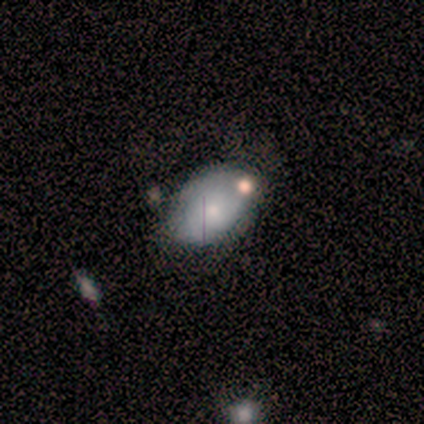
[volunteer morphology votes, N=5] smooth_or_featured: featured or disk (p=0.60) [alt: smooth p=0.20]
disk_edge_on: no (p=0.67) [alt: yes p=0.33]
bar: no (p=1.00)
has_spiral_arms: no (p=1.00)
bulge_size: small (p=1.00)
merging: major disturbance (p=0.50) [alt: none p=0.25]